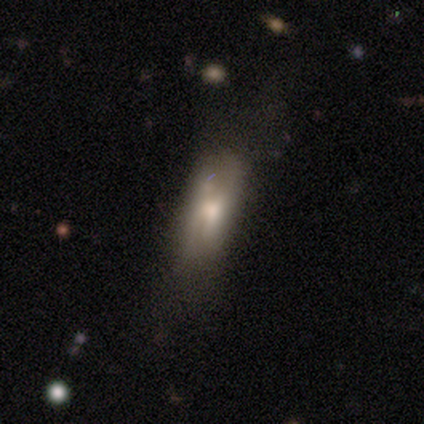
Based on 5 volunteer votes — Overall: featured or disk (60%; smooth 40%). Edge-on disk: no (67%; yes 33%). Bar: weak (50%, tied with no). Spiral arms: no (100%). Bulge size: moderate (50%, tied with small). Merging: none (60%; minor disturbance 20%).